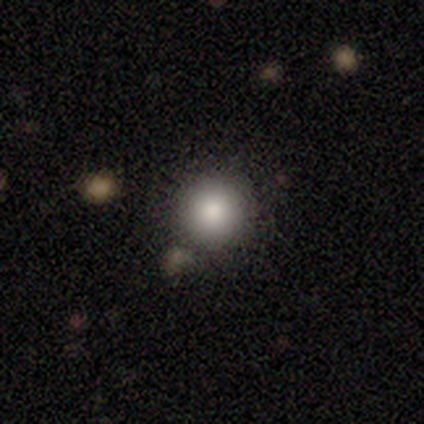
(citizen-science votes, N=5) This is clearly a smooth galaxy (100%). How rounded: clearly round (80%). Merging: clearly none (80%).